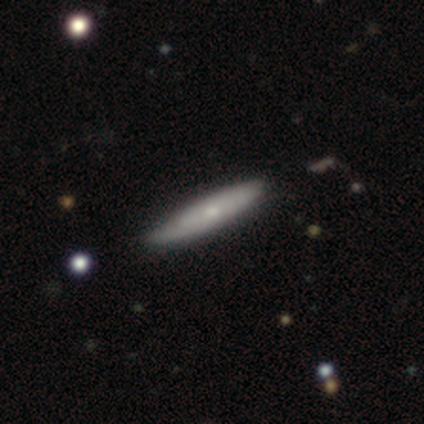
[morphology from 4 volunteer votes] This appears to be a smooth galaxy with no disk features (75%) that is cigar-shaped (100%). Merging: none (100%).